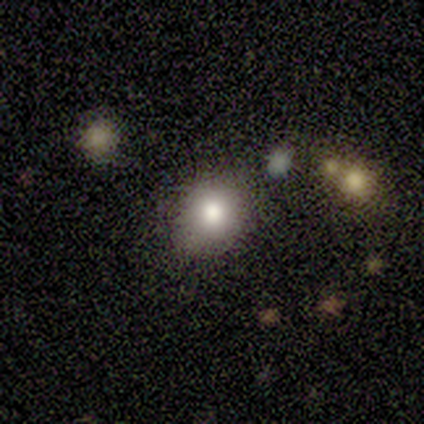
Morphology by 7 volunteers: This is marginally a smooth galaxy (43%). How rounded: likely round (67%). Merging: clearly none (100%).